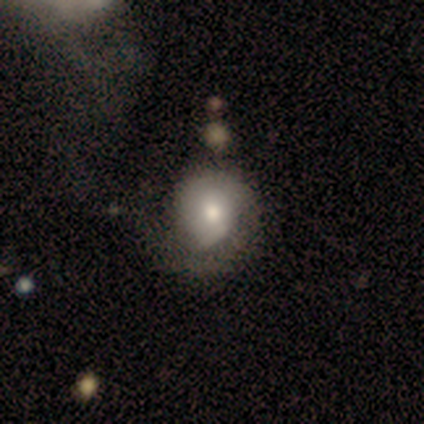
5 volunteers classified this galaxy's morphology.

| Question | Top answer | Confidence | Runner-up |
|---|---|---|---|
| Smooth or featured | smooth | 40% | tied: featured or disk (40%) |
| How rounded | round | 50% | tied: in between (50%) |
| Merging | none | 50% | minor disturbance (25%) |